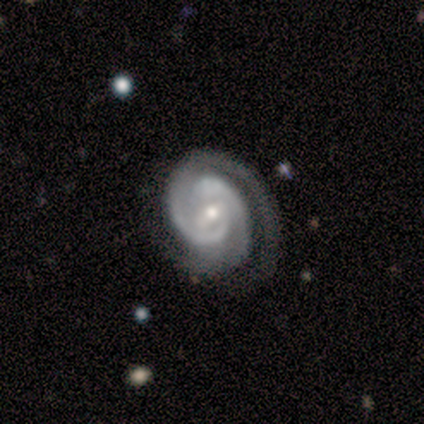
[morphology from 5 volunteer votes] Smooth or featured? featured or disk (100%)
Edge-on disk? no (100%)
Bar? weak (60%)
Spiral arms? yes (100%)
Spiral winding? tight (80%)
Spiral arm count? 2 (100%)
Bulge size? small (80%)
Merging? none (60%)